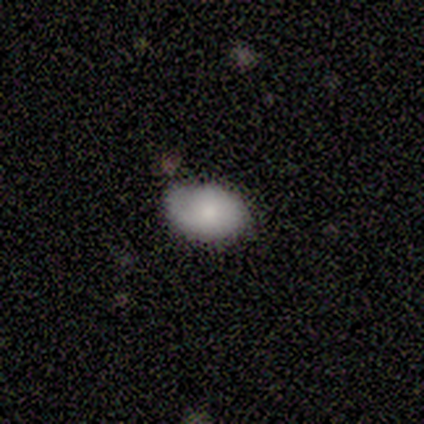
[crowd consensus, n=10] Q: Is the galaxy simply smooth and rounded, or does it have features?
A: smooth — 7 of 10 (70%).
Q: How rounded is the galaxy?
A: in between — 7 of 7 (100%).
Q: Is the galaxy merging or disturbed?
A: none — 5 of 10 (50%, tied with minor disturbance).